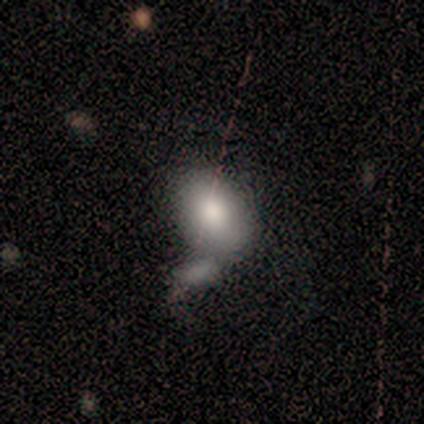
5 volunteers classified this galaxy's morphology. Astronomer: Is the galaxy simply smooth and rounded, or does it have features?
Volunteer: smooth — 80%.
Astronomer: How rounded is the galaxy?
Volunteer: in between — 75%.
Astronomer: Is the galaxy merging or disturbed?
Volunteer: none — 40%, tied with minor disturbance at 40%.